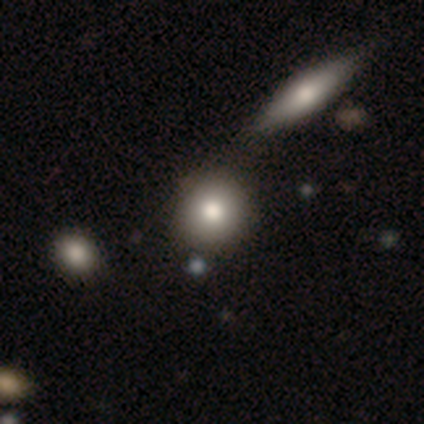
smooth 50%, featured or disk 25%, star or artifact 25%. Down the decision tree: how rounded — round (100%); merging — none (67%).